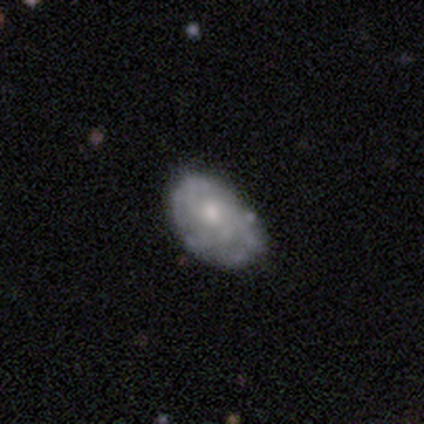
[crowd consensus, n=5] This is clearly a featured or disk galaxy (100%). It is clearly not viewed edge-on (100%). Bar: likely weak (60%). Spiral arm pattern: clearly yes (80%). Spiral arm count: marginally 2 (25%, tied with 3, more than 4 and can't tell). Spiral winding: likely tight (75%). Central bulge: likely moderate (60%). Merging: clearly none (80%).